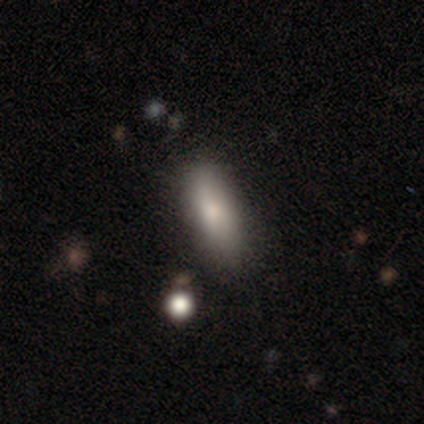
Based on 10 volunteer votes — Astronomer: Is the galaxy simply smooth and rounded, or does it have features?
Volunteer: smooth — 60%.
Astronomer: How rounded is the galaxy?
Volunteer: in between — 50%, tied with cigar-shaped at 50%.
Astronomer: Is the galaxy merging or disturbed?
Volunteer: none — 50%, tied with minor disturbance at 50%.